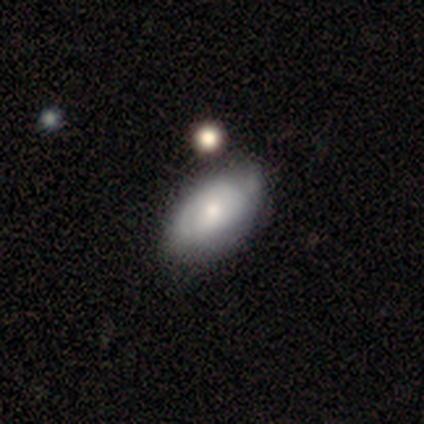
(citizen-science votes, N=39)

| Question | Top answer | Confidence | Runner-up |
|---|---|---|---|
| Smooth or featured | smooth | 62% | featured or disk (38%) |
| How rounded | in between | 83% | round (12%) |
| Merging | none | 54% | minor disturbance (15%) |